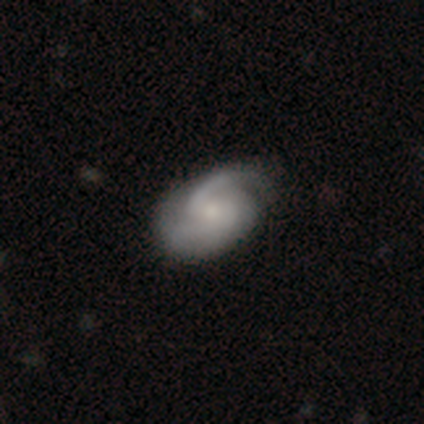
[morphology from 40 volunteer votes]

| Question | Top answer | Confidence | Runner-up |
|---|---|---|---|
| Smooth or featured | featured or disk | 90% | smooth (8%) |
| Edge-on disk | no | 100% | — |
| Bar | no | 50% | weak (47%) |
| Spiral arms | yes | 94% | no (6%) |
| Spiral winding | medium | 47% | tight (29%) |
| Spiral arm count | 2 | 85% | 1 (6%) |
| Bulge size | small | 50% | moderate (42%) |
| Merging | none | 64% | minor disturbance (13%) |